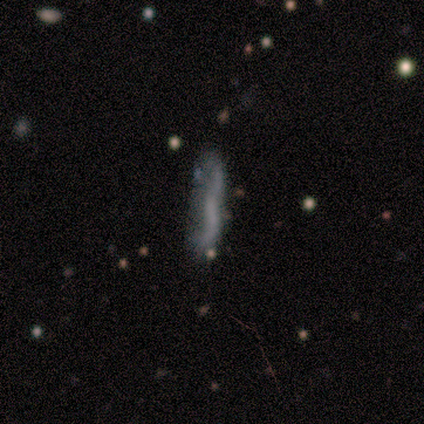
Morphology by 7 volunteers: Overall: smooth (57%; featured or disk 29%). How rounded: cigar-shaped (100%). Merging: none (50%; minor disturbance 33%).